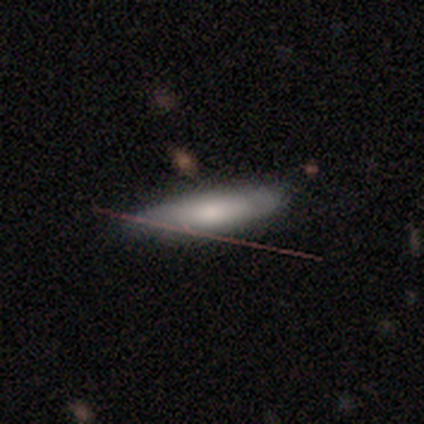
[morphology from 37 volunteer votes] This appears to be a smooth galaxy with no disk features (68%) that is cigar-shaped (60%). Merging: none (83%).